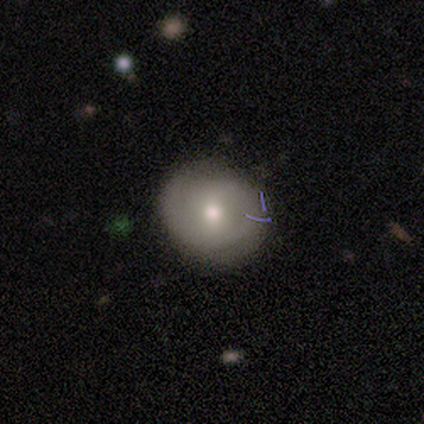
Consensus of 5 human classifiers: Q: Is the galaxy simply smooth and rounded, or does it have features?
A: featured or disk — 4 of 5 (80%).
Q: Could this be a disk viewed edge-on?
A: no — 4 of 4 (100%).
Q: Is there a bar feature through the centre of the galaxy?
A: no — 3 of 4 (75%).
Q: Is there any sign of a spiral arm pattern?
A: yes — 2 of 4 (50%, tied with no).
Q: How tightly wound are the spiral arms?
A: tight — 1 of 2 (50%, tied with medium).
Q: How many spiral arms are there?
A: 1 — 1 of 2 (50%, tied with 2).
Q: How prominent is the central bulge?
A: moderate — 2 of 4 (50%, tied with small).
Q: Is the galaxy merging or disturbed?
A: none — 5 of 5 (100%).